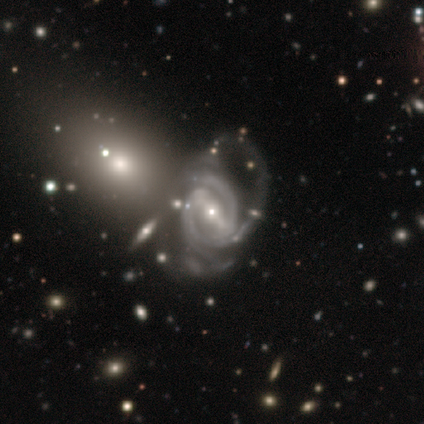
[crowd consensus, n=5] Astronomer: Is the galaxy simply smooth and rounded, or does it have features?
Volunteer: featured or disk — 100%.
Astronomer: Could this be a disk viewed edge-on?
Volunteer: no — 100%.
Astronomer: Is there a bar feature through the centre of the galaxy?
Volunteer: strong — 60% (runner-up: weak, 40%).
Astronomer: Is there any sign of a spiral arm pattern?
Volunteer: yes — 100%.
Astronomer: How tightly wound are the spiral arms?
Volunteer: tight — 100%.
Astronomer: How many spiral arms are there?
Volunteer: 3 — 60% (runner-up: 2, 40%).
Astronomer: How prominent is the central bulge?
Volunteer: small — 80%.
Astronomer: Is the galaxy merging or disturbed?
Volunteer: none — 60%.